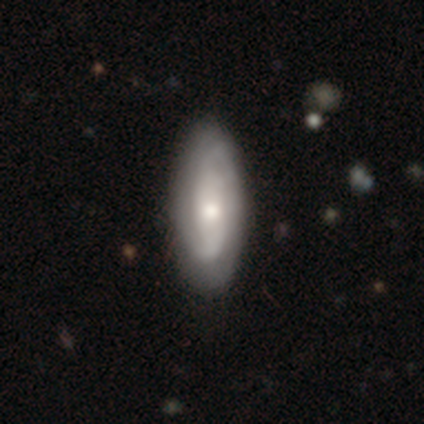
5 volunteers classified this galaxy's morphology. This is clearly a featured or disk galaxy (80%). It is clearly not viewed edge-on (100%). Bar: likely no (75%). Spiral arm pattern: clearly yes (100%). Spiral arm count: likely 2 (75%). Spiral winding: likely tight (75%). Central bulge: possibly moderate (50%, tied with small). Merging: likely none (60%).